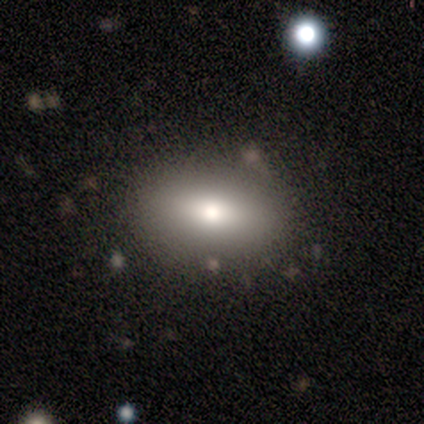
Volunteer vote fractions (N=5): Smooth or featured?
  - smooth: 100% *
  - featured or disk: 0%
  - star or artifact: 0%
How rounded?
  - in between: 80% *
  - cigar-shaped: 20%
  - round: 0%
Merging?
  - none: 100% *
  - minor disturbance: 0%
  - major disturbance: 0%
  - merger: 0%